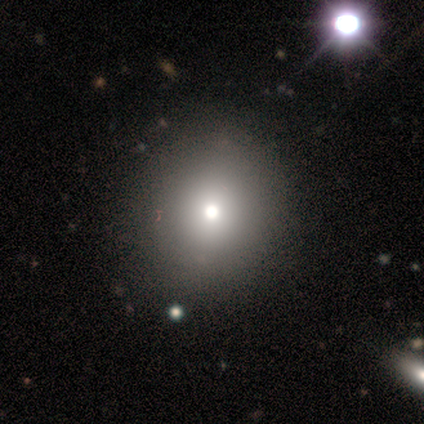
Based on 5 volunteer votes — Volunteers were most divided on "how rounded": in between: 60%, round: 40%, cigar-shaped: 0%. More confident: smooth or featured — smooth (100%); merging — none (100%).